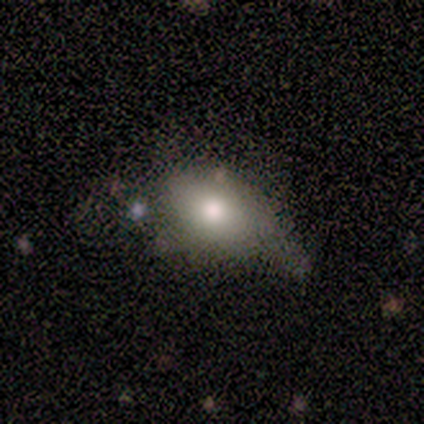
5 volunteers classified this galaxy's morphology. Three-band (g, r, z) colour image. It shows a smooth galaxy with no disk features (80%) that is in between round and cigar-shaped (100%). Merging: minor disturbance (50%).